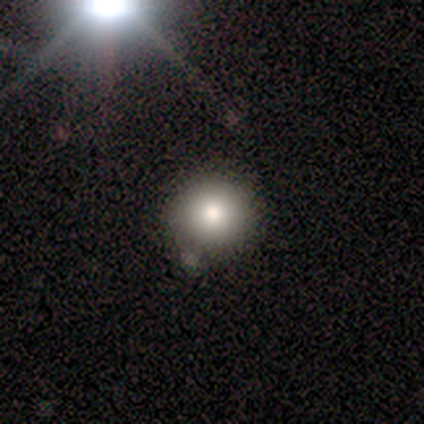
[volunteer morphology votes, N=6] type=smooth (83%); roundness=round (100%); merging=none (83%).